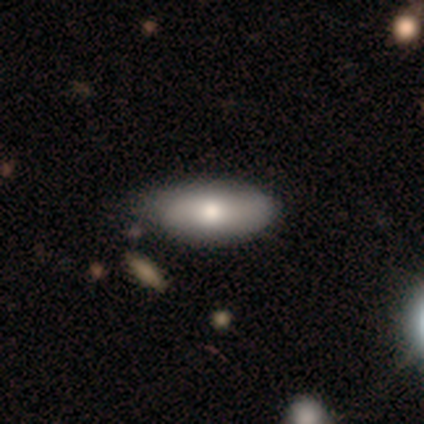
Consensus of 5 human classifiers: Q: Smooth or featured?
A: smooth (100%)
Q: How rounded?
A: in between (100%)
Q: Merging?
A: none (100%)